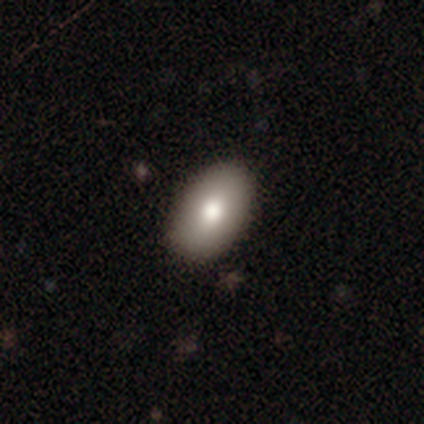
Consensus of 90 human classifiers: Q: Smooth or featured?
A: smooth (81%); runner-up: featured or disk (13%)
Q: How rounded?
A: in between (95%); runner-up: round (5%)
Q: Merging?
A: none (88%); runner-up: minor disturbance (12%)